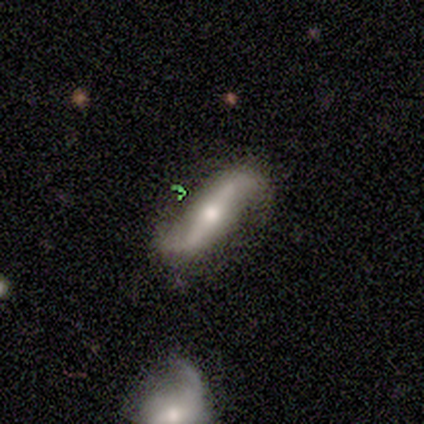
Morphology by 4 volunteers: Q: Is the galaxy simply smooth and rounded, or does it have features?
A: featured or disk — 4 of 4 (100%).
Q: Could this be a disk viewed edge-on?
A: no — 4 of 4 (100%).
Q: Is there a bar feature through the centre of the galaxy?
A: strong — 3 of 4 (75%).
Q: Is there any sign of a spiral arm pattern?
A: yes — 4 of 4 (100%).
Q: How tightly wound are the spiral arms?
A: loose — 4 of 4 (100%).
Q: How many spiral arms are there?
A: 2 — 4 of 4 (100%).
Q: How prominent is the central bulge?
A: moderate — 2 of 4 (50%).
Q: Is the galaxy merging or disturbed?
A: none — 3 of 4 (75%).